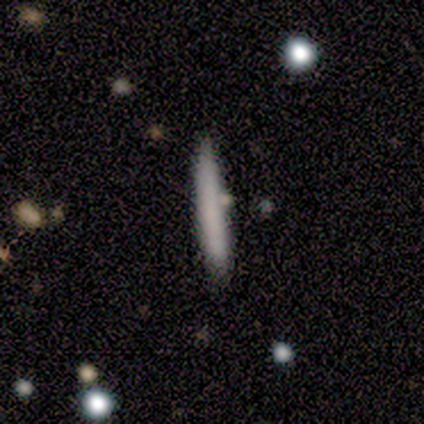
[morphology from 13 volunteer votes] A smooth galaxy with no disk features (69%) that is cigar-shaped (78%). Merging: none (85%).